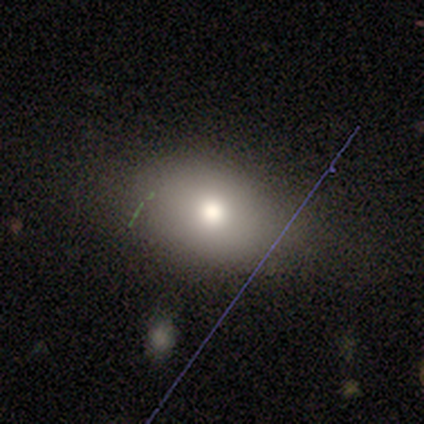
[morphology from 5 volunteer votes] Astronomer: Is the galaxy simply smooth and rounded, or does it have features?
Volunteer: smooth — 100%.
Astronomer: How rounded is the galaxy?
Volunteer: in between — 60% (runner-up: round, 40%).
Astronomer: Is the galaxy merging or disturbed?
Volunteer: none — 60%.